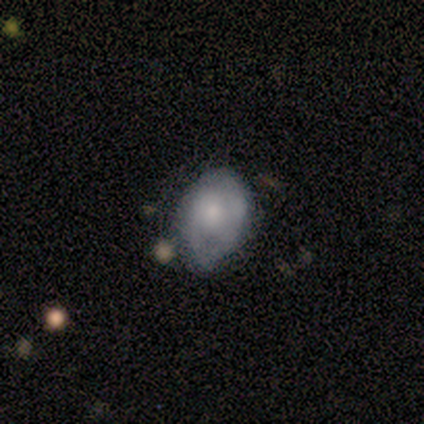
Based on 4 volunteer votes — This appears to be a smooth galaxy with no disk features (50%, tied with featured or disk) that is in between round and cigar-shaped (100%). Merging: minor disturbance (75%).